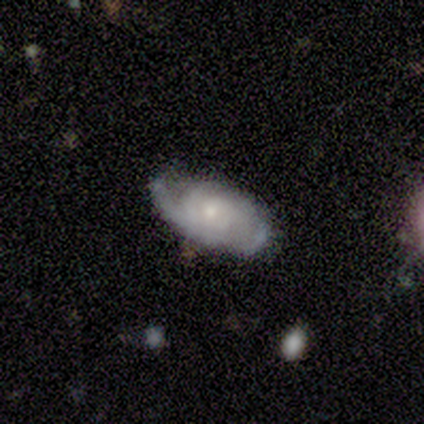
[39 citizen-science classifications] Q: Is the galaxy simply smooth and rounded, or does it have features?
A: featured or disk — 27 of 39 (69%).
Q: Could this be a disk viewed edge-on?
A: no — 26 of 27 (96%).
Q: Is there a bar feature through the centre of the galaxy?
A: no — 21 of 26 (81%).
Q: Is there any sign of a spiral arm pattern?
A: yes — 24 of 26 (92%).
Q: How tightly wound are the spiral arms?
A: tight — 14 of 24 (58%).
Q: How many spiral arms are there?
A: can't tell — 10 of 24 (42%).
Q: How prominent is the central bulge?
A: small — 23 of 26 (88%).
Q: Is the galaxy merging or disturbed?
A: none — 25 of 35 (71%).